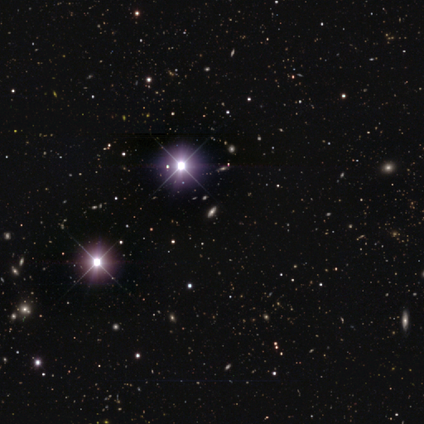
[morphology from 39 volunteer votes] smooth_or_featured: star or artifact (p=0.79) [alt: smooth p=0.15]